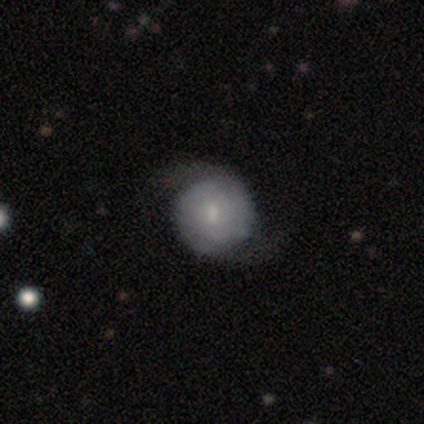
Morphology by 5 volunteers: Smooth or featured?
  - featured or disk: 60% *
  - smooth: 40%
  - star or artifact: 0%
Edge-on disk?
  - no: 100% *
  - yes: 0%
Bar?
  - weak: 100% *
  - strong: 0%
  - no: 0%
Spiral arms?
  - yes: 100% *
  - no: 0%
Spiral winding?
  - tight: 67% *
  - loose: 33%
  - medium: 0%
Spiral arm count?
  - 2: 100% *
  - 1: 0%
  - 3: 0%
  - 4: 0%
  - more than 4: 0%
  - can't tell: 0%
Bulge size?
  - small: 67% *
  - moderate: 33%
  - dominant: 0%
  - large: 0%
  - none: 0%
Merging?
  - none: 60% *
  - minor disturbance: 20%
  - major disturbance: 20%
  - merger: 0%